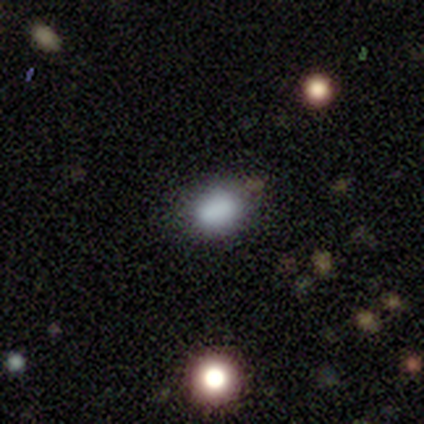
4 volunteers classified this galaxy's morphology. Overall: smooth (75%). How rounded: in between (100%). Merging: none (67%; minor disturbance 33%).